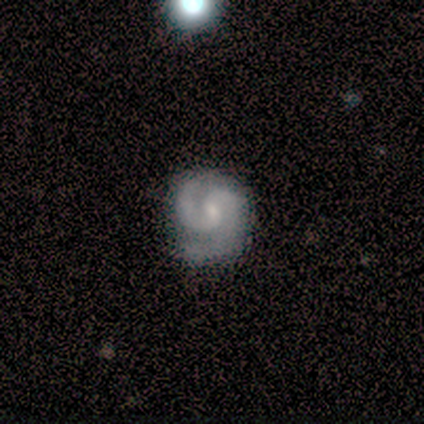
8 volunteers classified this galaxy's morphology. This is clearly a featured or disk galaxy (100%). It is clearly not viewed edge-on (88%). Bar: possibly weak (57%). Spiral arm pattern: clearly yes (100%). Spiral arm count: clearly 2 (100%). Spiral winding: possibly medium (57%). Central bulge: possibly small (57%). Merging: likely none (75%).